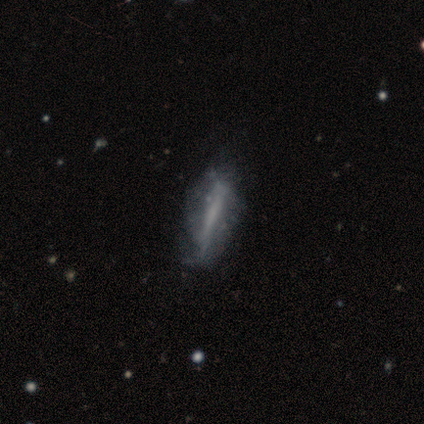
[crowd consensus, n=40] smooth-or-featured: featured or disk: 65% | smooth: 35% | star or artifact: 0%
  disk-edge-on: no: 73% | yes: 27%
    bar: strong: 53% | no: 42% | weak: 5%
    has-spiral-arms: no: 79% | yes: 21%
    bulge-size: none: 84% | moderate: 11% | small: 5% | dominant: 0% | large: 0%
  merging: none: 42% | minor disturbance: 20% | major disturbance: 20% | merger: 0%